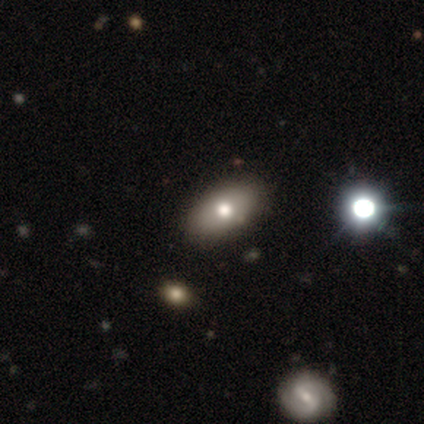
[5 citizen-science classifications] smooth 60%, featured or disk 40%, star or artifact 0%. Down the decision tree: how rounded — in between (67%); merging — none (60%).